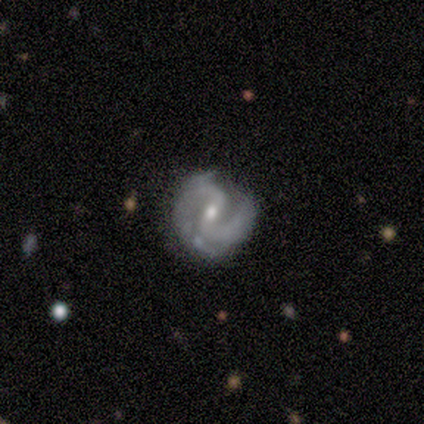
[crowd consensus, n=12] featured or disk 100%, smooth 0%, star or artifact 0%. Down the decision tree: edge-on disk — no (100%); bar — weak (50%); spiral arms — yes (83%); spiral arm count — 2 (80%); spiral winding — loose (50%); bulge size — small (58%); merging — none (58%).